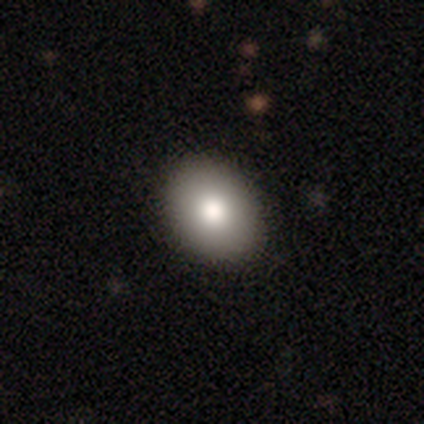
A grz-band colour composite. It shows a smooth galaxy with no disk features (85%) that is in between round and cigar-shaped (68%). Merging: none (86%).